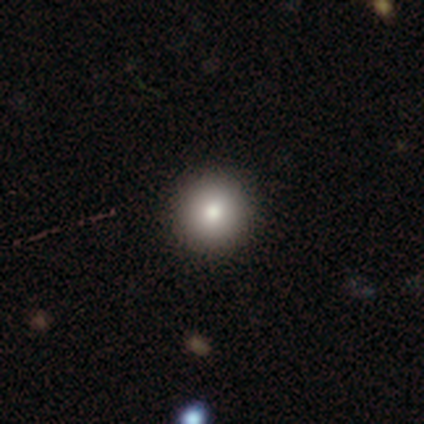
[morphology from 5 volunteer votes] Smooth or featured: smooth — 60% (star or artifact — 40%)
How rounded: round — 100%
Merging: none — 100%